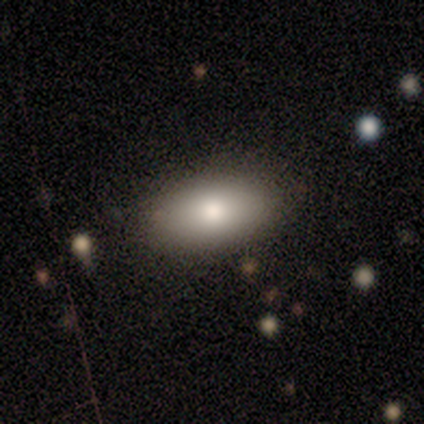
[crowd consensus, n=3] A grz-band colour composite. It shows a smooth galaxy with no disk features (100%) that is in between round and cigar-shaped (100%). Merging: none (100%).